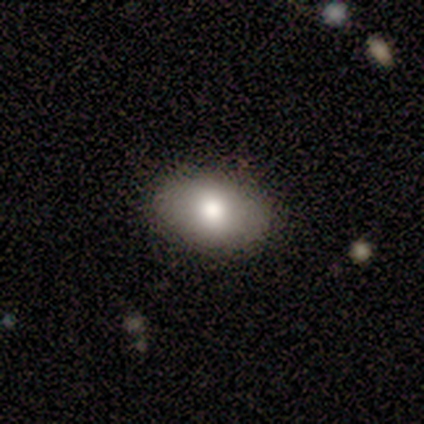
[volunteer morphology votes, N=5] A smooth galaxy with no disk features (80%) that is in between round and cigar-shaped (100%). Merging: none (80%).